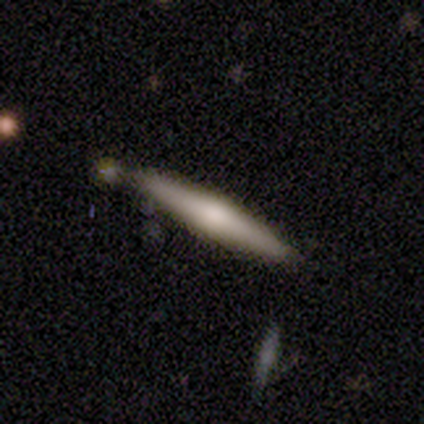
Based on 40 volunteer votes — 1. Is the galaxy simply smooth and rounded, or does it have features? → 48% featured or disk, 45% smooth, 8% star or artifact.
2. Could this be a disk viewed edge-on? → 95% yes, 5% no.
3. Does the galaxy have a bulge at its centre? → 83% rounded, 17% none, 0% boxy.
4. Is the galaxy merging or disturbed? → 76% none, 14% minor disturbance, 8% merger, 3% major disturbance.